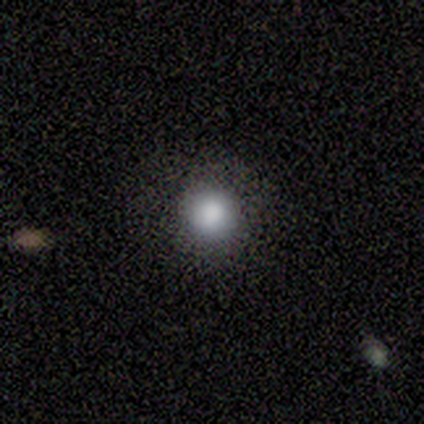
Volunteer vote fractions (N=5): smooth_or_featured: smooth (p=0.80) [alt: star or artifact p=0.20]
how_rounded: round (p=1.00)
merging: none (p=1.00)